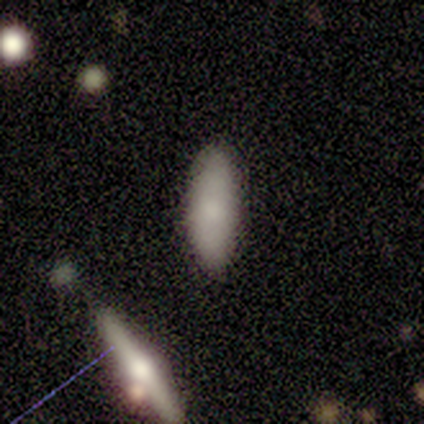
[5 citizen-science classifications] smooth-or-featured: smooth: 80% | star or artifact: 20% | featured or disk: 0%
  how-rounded: cigar-shaped: 75% | in between: 25% | round: 0%
  merging: none: 100% | minor disturbance: 0% | major disturbance: 0% | merger: 0%